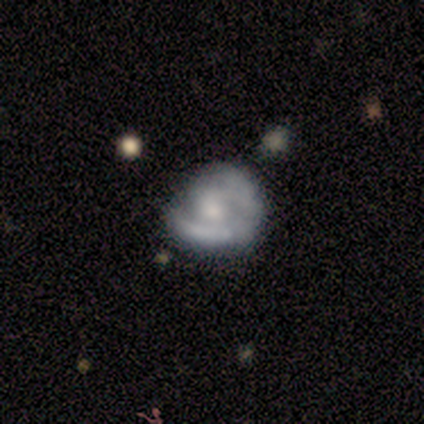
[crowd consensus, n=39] Smooth or featured?
  - featured or disk: 79% *
  - smooth: 13%
  - star or artifact: 8%
Edge-on disk?
  - no: 100% *
  - yes: 0%
Bar?
  - no: 74% *
  - weak: 23%
  - strong: 3%
Spiral arms?
  - yes: 84% *
  - no: 16%
Spiral winding?
  - tight: 54% *
  - medium: 38%
  - loose: 8%
Spiral arm count?
  - 2: 46% *
  - can't tell: 27%
  - 1: 23%
  - 3: 4%
  - 4: 0%
  - more than 4: 0%
Bulge size?
  - small: 48% *
  - large: 19%
  - moderate: 16%
  - none: 16%
  - dominant: 0%
Merging?
  - none: 58% *
  - minor disturbance: 31%
  - major disturbance: 11%
  - merger: 0%